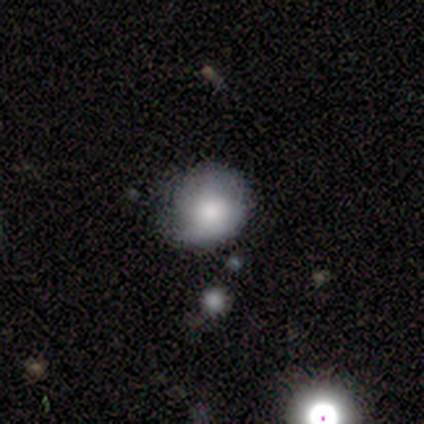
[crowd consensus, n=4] smooth_or_featured: smooth (p=0.75) [alt: featured or disk p=0.25]
how_rounded: round (p=1.00)
merging: minor disturbance (p=0.75) [alt: none p=0.25]